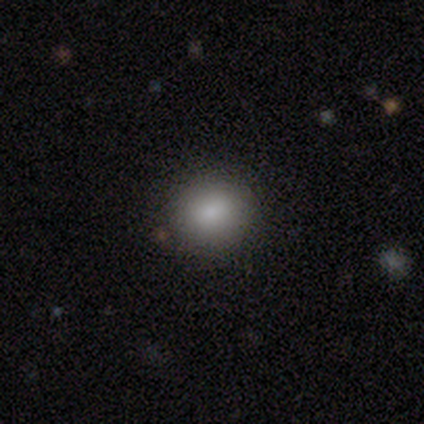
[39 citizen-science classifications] This is likely a smooth galaxy (74%). How rounded: clearly round (86%). Merging: clearly none (88%).